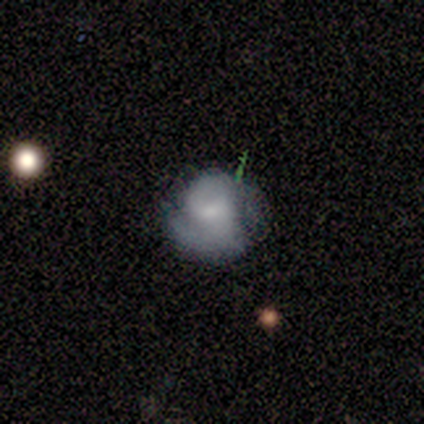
Smooth or featured?
  - featured or disk: 100% *
  - smooth: 0%
  - star or artifact: 0%
Edge-on disk?
  - no: 100% *
  - yes: 0%
Bar?
  - weak: 75% *
  - no: 25%
  - strong: 0%
Spiral arms?
  - yes: 100% *
  - no: 0%
Spiral winding?
  - medium: 50% * (tied)
  - loose: 50% * (tied)
  - tight: 0%
Spiral arm count?
  - 1: 50% *
  - 2: 25%
  - 3: 25%
  - 4: 0%
  - more than 4: 0%
  - can't tell: 0%
Bulge size?
  - large: 25% * (tied)
  - moderate: 25% * (tied)
  - small: 25% * (tied)
  - none: 25% * (tied)
  - dominant: 0%
Merging?
  - none: 75% *
  - minor disturbance: 25%
  - major disturbance: 0%
  - merger: 0%